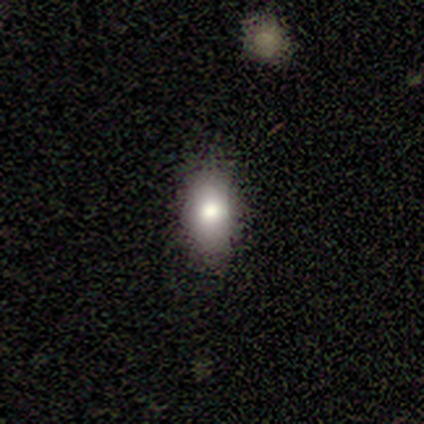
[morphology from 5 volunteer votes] Q: Smooth or featured?
A: smooth (60%); runner-up: star or artifact (40%)
Q: How rounded?
A: in between (100%)
Q: Merging?
A: none (67%); runner-up: minor disturbance (33%)